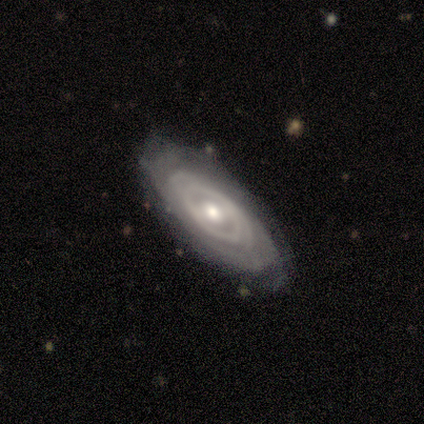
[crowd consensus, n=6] This is clearly a featured or disk galaxy (100%). It is clearly not viewed edge-on (83%). Bar: clearly weak (80%). Spiral arm pattern: clearly yes (100%). Spiral arm count: likely can't tell (60%). Spiral winding: clearly tight (100%). Central bulge: clearly moderate (80%). Merging: likely none (67%).